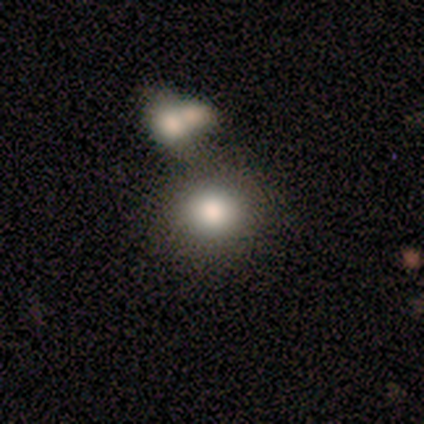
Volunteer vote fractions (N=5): This is clearly a smooth galaxy (80%). How rounded: likely in between (75%). Merging: clearly none (100%).